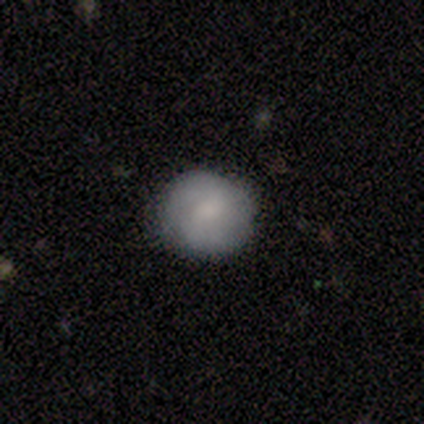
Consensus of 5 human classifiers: This is likely a featured or disk galaxy (60%). It is clearly not viewed edge-on (100%). Bar: likely no (67%). Spiral arm pattern: clearly no (100%). Central bulge: marginally large (33%, tied with small and none). Merging: likely none (75%).